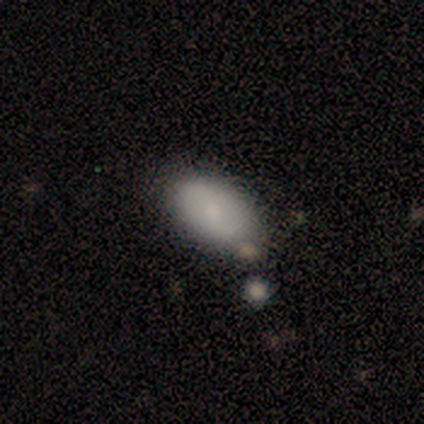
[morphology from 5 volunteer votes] This is clearly a smooth galaxy (100%). How rounded: clearly in between (80%). Merging: clearly none (80%).